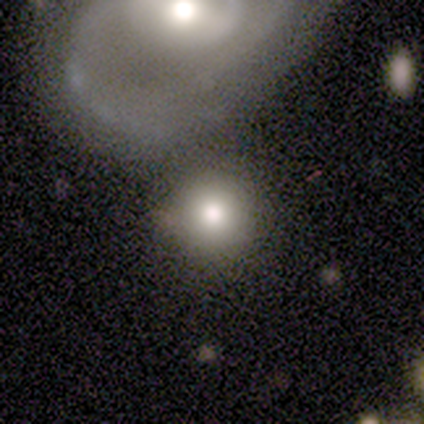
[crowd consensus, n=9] This is likely a smooth galaxy (67%). How rounded: clearly round (100%). Merging: marginally none (33%, tied with merger).